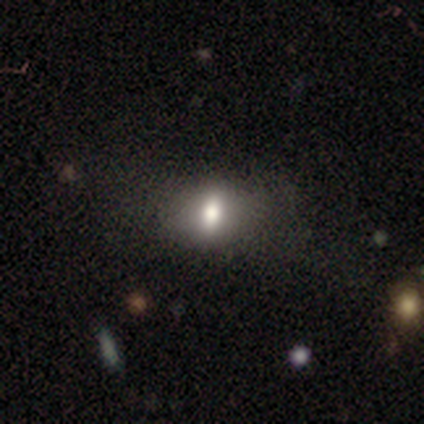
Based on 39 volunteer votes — smooth_or_featured: smooth (p=0.51) [alt: featured or disk p=0.38]
how_rounded: in between (p=0.70) [alt: round p=0.15]
merging: none (p=0.26) [alt: minor disturbance p=0.17]